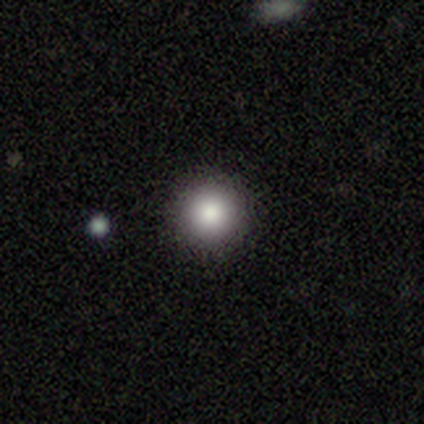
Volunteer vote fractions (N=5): Volunteers were most divided on "merging": none: 60%, minor disturbance: 20%, major disturbance: 20%, merger: 0%. More confident: smooth or featured — smooth (100%); how rounded — round (100%).